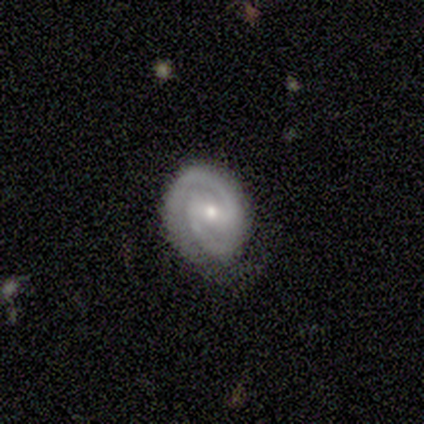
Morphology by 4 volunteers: smooth_or_featured: featured or disk (p=0.75) [alt: star or artifact p=0.25]
disk_edge_on: no (p=1.00)
bar: weak (p=0.67) [alt: strong p=0.33]
has_spiral_arms: yes (p=1.00)
spiral_winding: tight (p=1.00)
spiral_arm_count: 2 (p=0.67) [alt: 3 p=0.33]
bulge_size: small (p=0.67) [alt: large p=0.33]
merging: minor disturbance (p=0.67) [alt: none p=0.33]